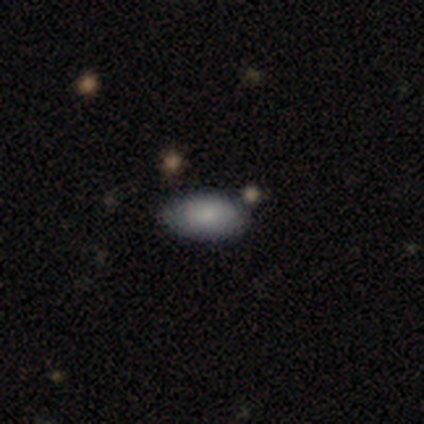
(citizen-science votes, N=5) A smooth galaxy with no disk features (80%) that is in between round and cigar-shaped (100%).

Vote fractions:
- Smooth or featured? smooth: 80% / featured or disk: 20% / star or artifact: 0%
- How rounded? in between: 100% / round: 0% / cigar-shaped: 0%
- Merging? none: 60% / minor disturbance: 40% / major disturbance: 0% / merger: 0%